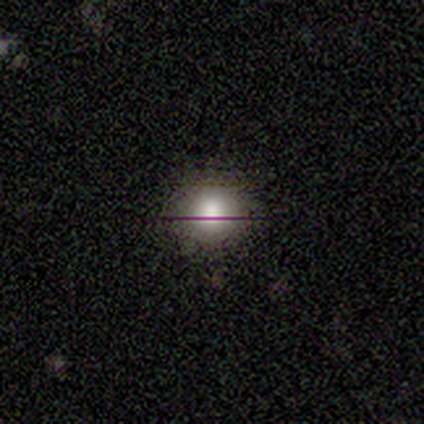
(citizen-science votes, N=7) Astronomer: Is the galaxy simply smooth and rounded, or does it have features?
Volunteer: smooth — 86%.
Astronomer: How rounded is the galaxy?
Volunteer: round — 100%.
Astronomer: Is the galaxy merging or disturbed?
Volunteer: none — 100%.